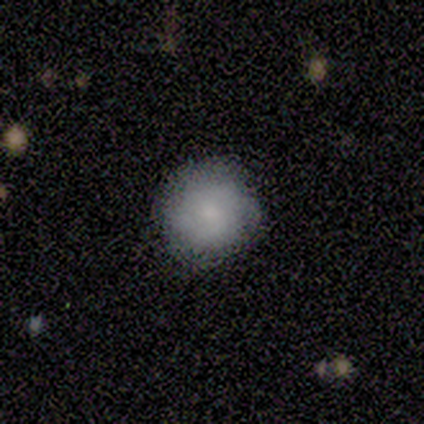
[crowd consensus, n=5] A smooth galaxy with no disk features (60%) that is round (67%). Merging: none (100%).